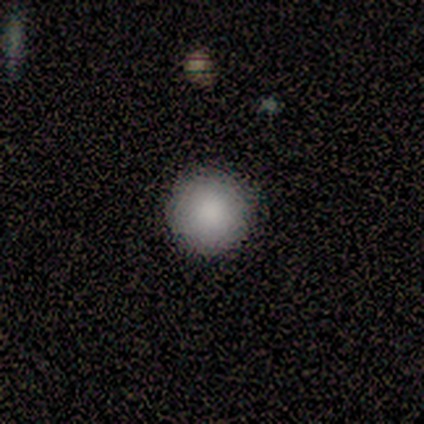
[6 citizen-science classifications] Overall: smooth (100%). How rounded: round (100%). Merging: none (83%).